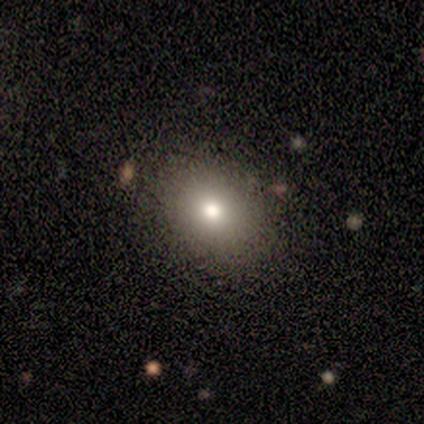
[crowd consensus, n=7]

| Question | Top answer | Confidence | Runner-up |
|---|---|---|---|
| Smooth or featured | smooth | 100% | — |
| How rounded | round | 57% | in between (43%) |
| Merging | none | 86% | minor disturbance (14%) |